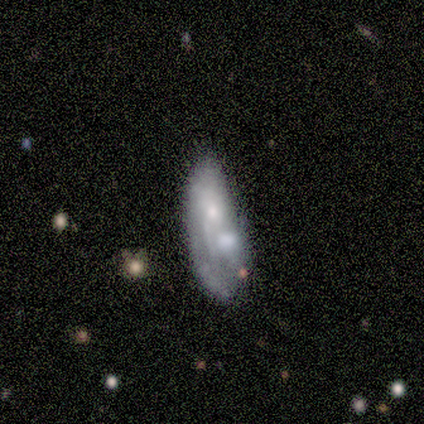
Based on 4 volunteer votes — This is possibly a smooth galaxy (50%, tied with featured or disk). How rounded: clearly in between (100%). Merging: likely major disturbance (75%).